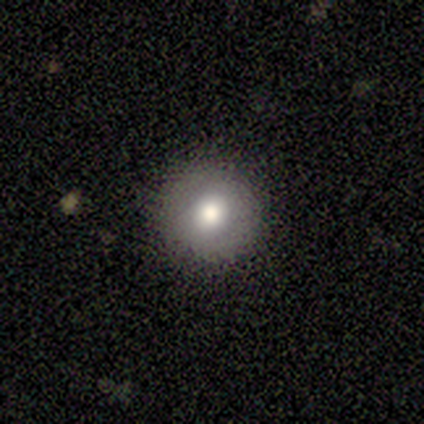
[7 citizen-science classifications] Smooth or featured?
  - smooth: 86% *
  - featured or disk: 14%
  - star or artifact: 0%
How rounded?
  - round: 100% *
  - in between: 0%
  - cigar-shaped: 0%
Merging?
  - none: 100% *
  - minor disturbance: 0%
  - major disturbance: 0%
  - merger: 0%